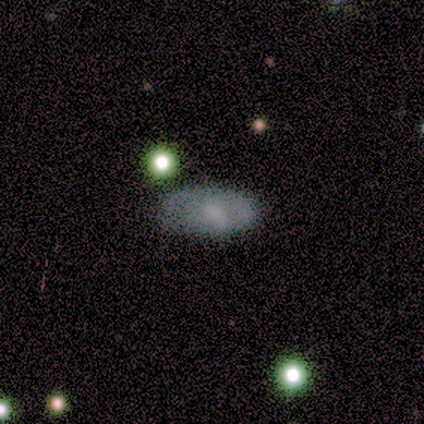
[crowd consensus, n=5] A featured or disk galaxy (60%) with no bar (67%), 1 (100%) tight (100%) spiral arms (67%) and a small central bulge (67%). Merging: none (80%).